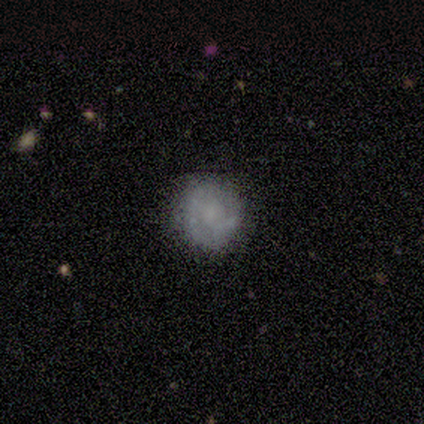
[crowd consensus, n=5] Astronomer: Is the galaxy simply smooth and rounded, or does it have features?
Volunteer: smooth — 80%.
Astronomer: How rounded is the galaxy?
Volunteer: round — 100%.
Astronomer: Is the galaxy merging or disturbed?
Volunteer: none — 80%.